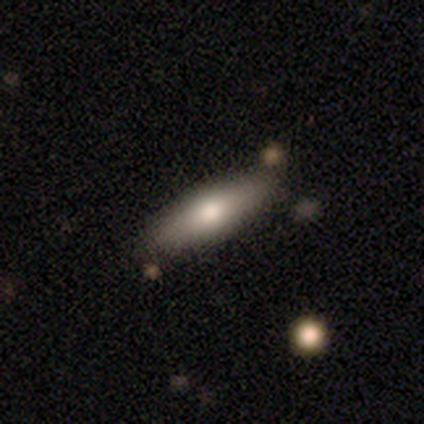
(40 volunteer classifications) smooth_or_featured: smooth (p=0.75) [alt: featured or disk p=0.20]
how_rounded: in between (p=0.50) [alt: cigar-shaped p=0.47]
merging: none (p=0.82) [alt: minor disturbance p=0.11]